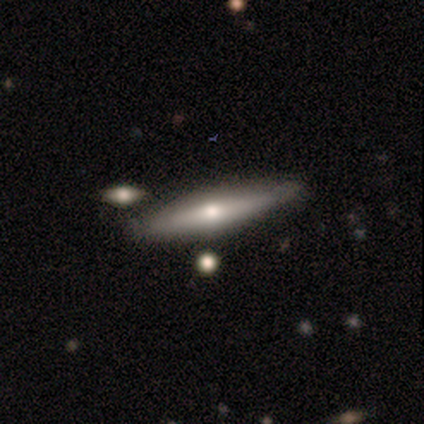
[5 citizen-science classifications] Morphology: type=featured or disk (60%); edge-on=yes (100%); edge-on bulge=rounded (100%); merging=none (60%).